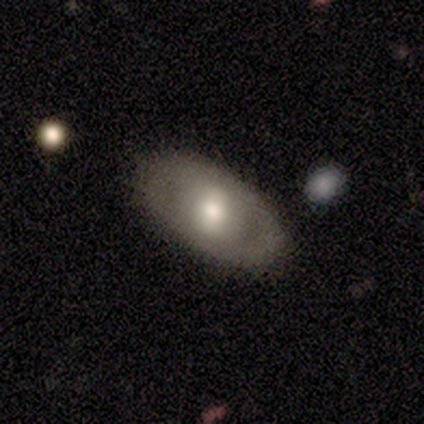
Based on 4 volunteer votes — Smooth or featured? smooth (50%, tied with featured or disk)
How rounded? in between (100%)
Merging? none (100%)